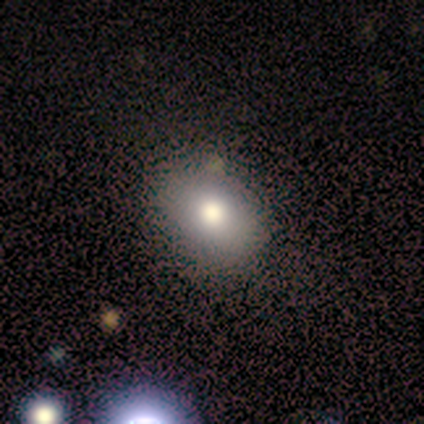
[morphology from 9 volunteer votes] smooth 78%, star or artifact 22%, featured or disk 0%. Down the decision tree: how rounded — in between (86%); merging — none (71%).